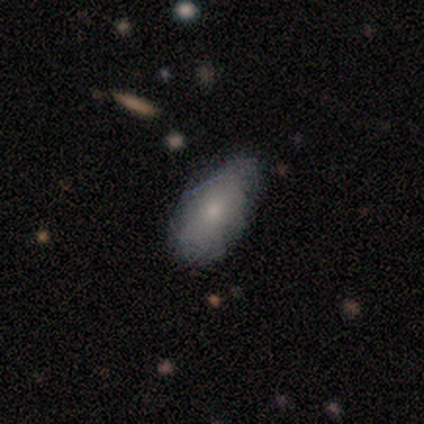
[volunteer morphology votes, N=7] Q: Smooth or featured?
A: smooth (71%); runner-up: featured or disk (29%)
Q: How rounded?
A: in between (100%)
Q: Merging?
A: none (86%); runner-up: major disturbance (14%)